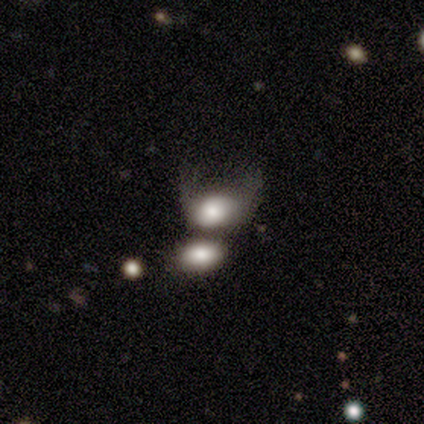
A smooth galaxy with no disk features (69%) that is in between round and cigar-shaped (78%). Merging: merger (46%).